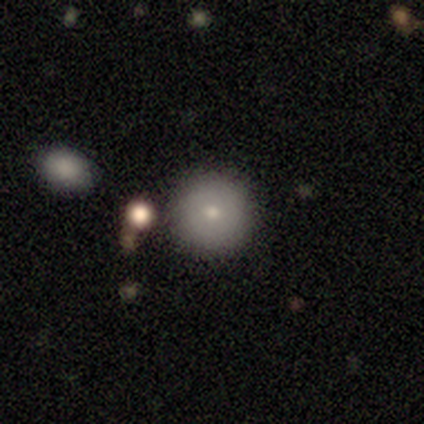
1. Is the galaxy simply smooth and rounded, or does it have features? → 71% smooth, 29% featured or disk, 0% star or artifact.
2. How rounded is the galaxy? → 100% round, 0% in between, 0% cigar-shaped.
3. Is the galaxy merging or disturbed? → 100% none, 0% minor disturbance, 0% major disturbance, 0% merger.